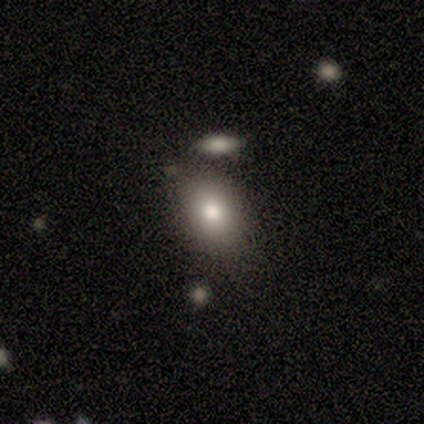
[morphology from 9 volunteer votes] Volunteers were most divided on "smooth or featured": smooth: 67%, star or artifact: 22%, featured or disk: 11%. More confident: how rounded — in between (100%); merging — none (86%).